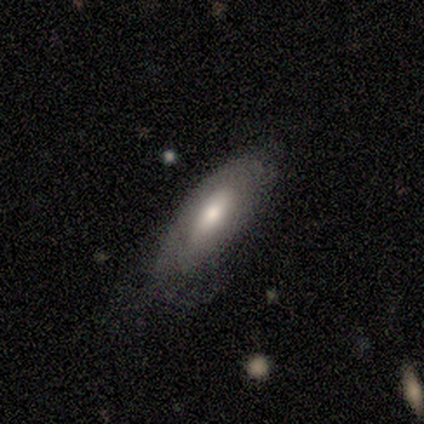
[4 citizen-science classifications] smooth 100%, featured or disk 0%, star or artifact 0%. Down the decision tree: how rounded — in between (75%); merging — none (75%).